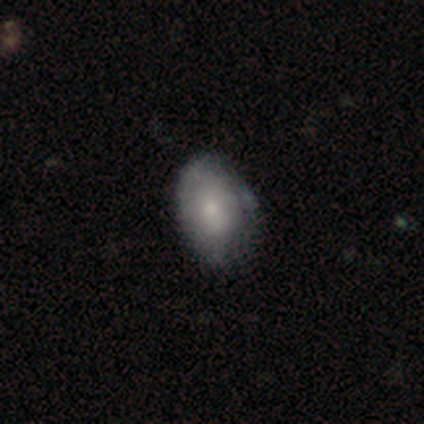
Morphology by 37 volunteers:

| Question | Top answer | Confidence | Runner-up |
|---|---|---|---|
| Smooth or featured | smooth | 59% | featured or disk (27%) |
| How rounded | in between | 91% | round (9%) |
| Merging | none | 66% | minor disturbance (34%) |